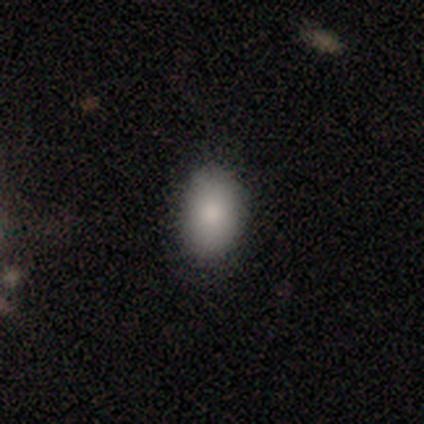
Smooth or featured?
  - smooth: 100% *
  - featured or disk: 0%
  - star or artifact: 0%
How rounded?
  - in between: 80% *
  - round: 20%
  - cigar-shaped: 0%
Merging?
  - none: 80% *
  - minor disturbance: 20%
  - major disturbance: 0%
  - merger: 0%